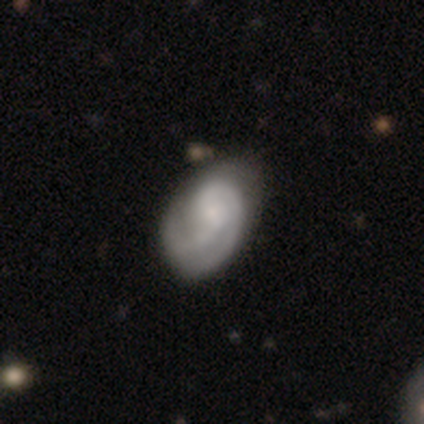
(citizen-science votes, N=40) Smooth or featured? 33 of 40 (82%) said featured or disk. Edge-on disk? 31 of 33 (94%) said no. Bar? 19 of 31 (61%) said weak. Spiral arms? 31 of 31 (100%) said yes. Spiral winding? 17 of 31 (55%) said tight. Spiral arm count? 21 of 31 (68%) said 2. Bulge size? 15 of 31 (48%) said small. Merging? 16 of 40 (40%) said none.